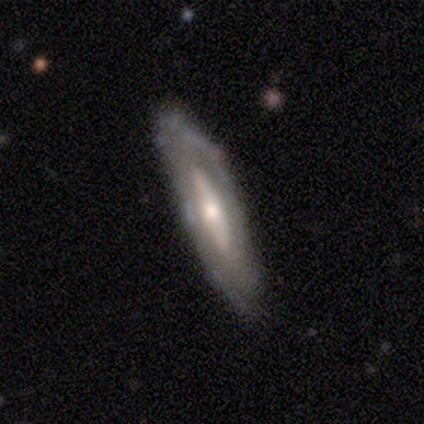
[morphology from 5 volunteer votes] Q: Smooth or featured?
A: featured or disk (60%); runner-up: smooth (40%)
Q: Edge-on disk?
A: no (67%); runner-up: yes (33%)
Q: Bar?
A: no (100%)
Q: Spiral arms?
A: no (100%)
Q: Bulge size?
A: large (50%); tied with: small (50%)
Q: Merging?
A: none (80%); runner-up: minor disturbance (20%)